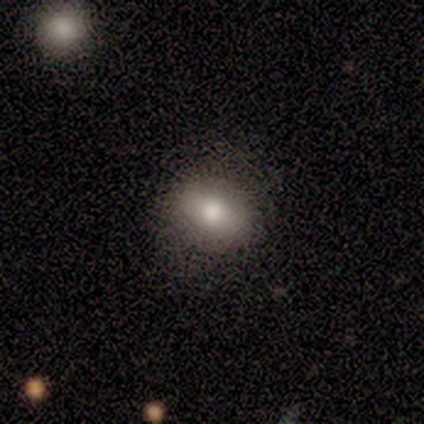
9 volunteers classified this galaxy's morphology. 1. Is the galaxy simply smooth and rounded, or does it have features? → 67% smooth, 22% featured or disk, 11% star or artifact.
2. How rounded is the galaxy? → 67% in between, 33% round, 0% cigar-shaped.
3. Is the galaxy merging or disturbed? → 62% none, 25% minor disturbance, 12% major disturbance, 0% merger.